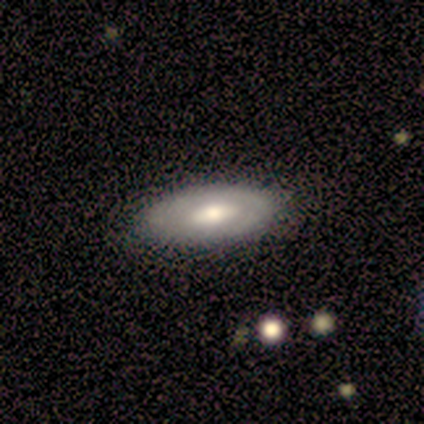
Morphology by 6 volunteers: Smooth or featured? featured or disk (83%)
Edge-on disk? no (100%)
Bar? no (80%)
Spiral arms? no (60%)
Bulge size? moderate (80%)
Merging? none (83%)